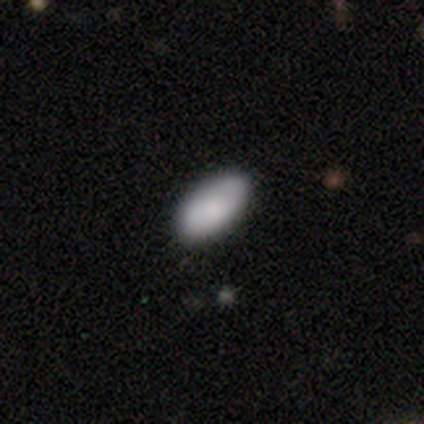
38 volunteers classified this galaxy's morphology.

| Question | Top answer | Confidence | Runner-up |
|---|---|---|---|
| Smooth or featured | smooth | 89% | featured or disk (8%) |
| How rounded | in between | 100% | — |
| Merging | none | 92% | merger (5%) |